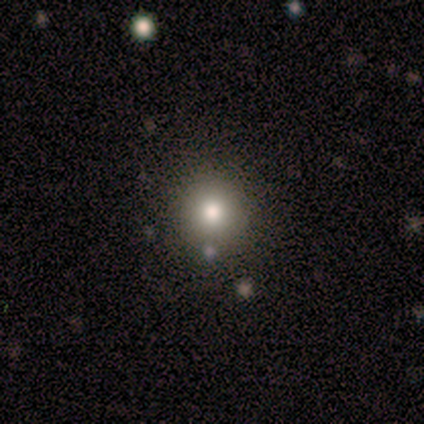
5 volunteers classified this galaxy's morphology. Smooth or featured? 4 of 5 (80%) said smooth. How rounded? 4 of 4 (100%) said round. Merging? 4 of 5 (80%) said none.